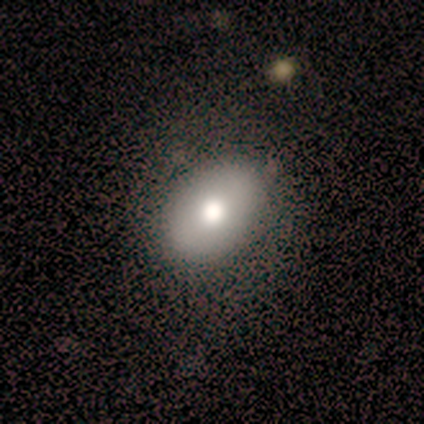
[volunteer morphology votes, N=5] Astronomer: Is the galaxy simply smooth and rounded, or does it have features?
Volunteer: smooth — 100%.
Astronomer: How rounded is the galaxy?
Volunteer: in between — 100%.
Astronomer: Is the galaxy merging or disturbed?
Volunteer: none — 40%, tied with minor disturbance at 40%.